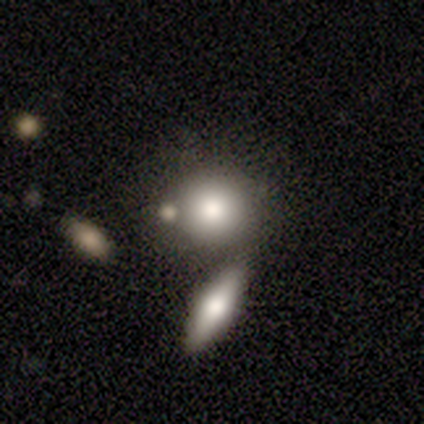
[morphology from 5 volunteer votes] This appears to be a smooth galaxy with no disk features (40%, tied with featured or disk) that is round (100%). Merging: none (75%).